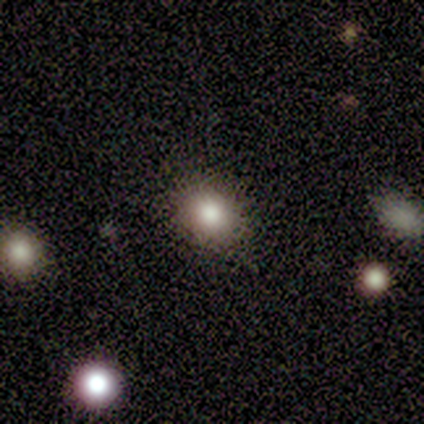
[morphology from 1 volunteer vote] type=featured or disk (100%); edge-on=no (100%); bar=no (100%); spiral arms=no (100%); bulge=moderate (100%); merging=none (100%).